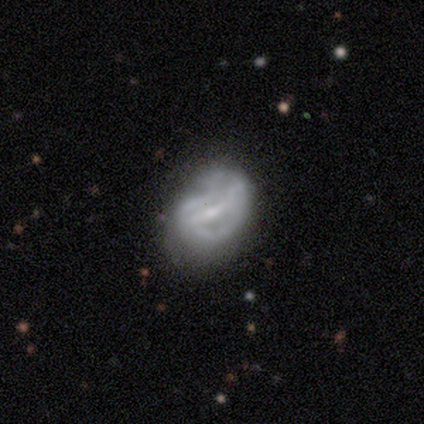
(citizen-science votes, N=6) smooth_or_featured: featured or disk (p=0.83) [alt: star or artifact p=0.17]
disk_edge_on: no (p=1.00)
bar: strong (p=0.60) [alt: weak p=0.40]
has_spiral_arms: yes (p=0.60) [alt: no p=0.40]
spiral_winding: tight (p=0.67) [alt: medium p=0.33]
spiral_arm_count: 2 (p=0.67) [alt: can't tell p=0.33]
bulge_size: moderate (p=0.60) [alt: none p=0.40]
merging: major disturbance (p=0.60) [alt: none p=0.40]